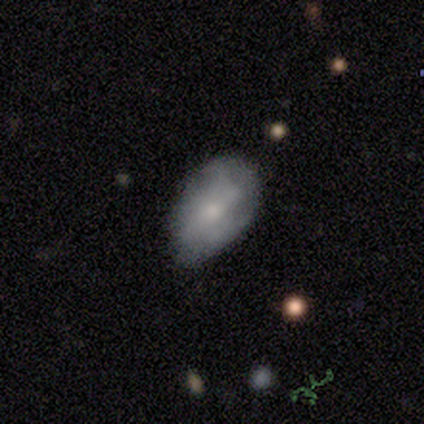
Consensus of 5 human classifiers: smooth-or-featured: featured or disk: 60% | smooth: 40% | star or artifact: 0%
  disk-edge-on: no: 100% | yes: 0%
    bar: no: 67% | weak: 33% | strong: 0%
    has-spiral-arms: no: 100% | yes: 0%
    bulge-size: small: 100% | dominant: 0% | large: 0% | moderate: 0% | none: 0%
  merging: minor disturbance: 80% | none: 20% | major disturbance: 0% | merger: 0%